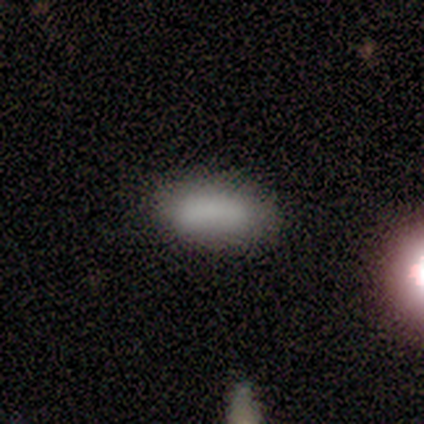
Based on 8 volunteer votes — smooth-or-featured: smooth: 88% | star or artifact: 12% | featured or disk: 0%
  how-rounded: in between: 71% | cigar-shaped: 29% | round: 0%
  merging: none: 86% | minor disturbance: 14% | major disturbance: 0% | merger: 0%